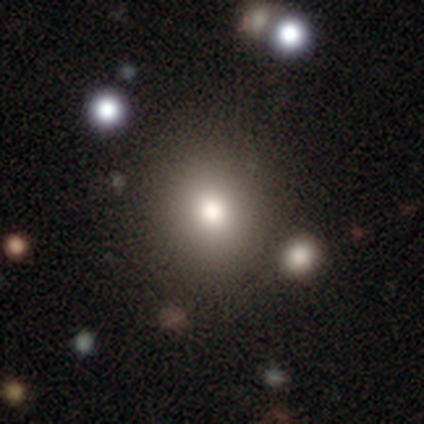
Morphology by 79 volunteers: Smooth or featured? smooth (78%)
How rounded? round (84%)
Merging? none (50%)